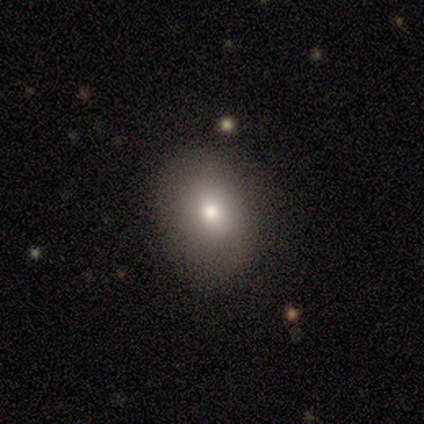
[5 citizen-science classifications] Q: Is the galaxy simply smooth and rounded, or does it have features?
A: featured or disk — 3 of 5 (60%).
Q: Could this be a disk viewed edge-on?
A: no — 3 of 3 (100%).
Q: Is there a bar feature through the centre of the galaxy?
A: weak — 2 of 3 (67%).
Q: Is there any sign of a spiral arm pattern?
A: no — 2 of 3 (67%).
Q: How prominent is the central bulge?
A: small — 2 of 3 (67%).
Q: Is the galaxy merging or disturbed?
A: none — 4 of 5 (80%).